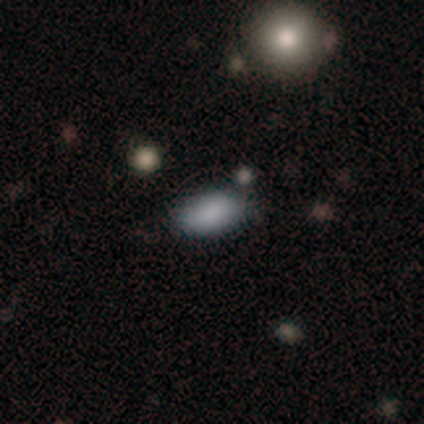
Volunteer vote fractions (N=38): A smooth galaxy with no disk features (95%) that is in between round and cigar-shaped (92%). Merging: none (81%).